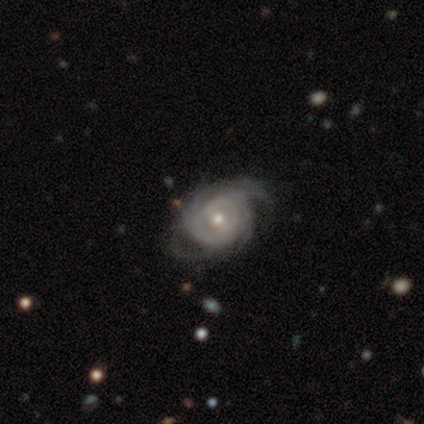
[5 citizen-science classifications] Morphology: type=featured or disk (100%); edge-on=no (100%); bar=weak (80%); spiral arms=yes (100%); winding=tight (80%); arm count=can't tell (60%); bulge=moderate (80%); merging=minor disturbance (60%).